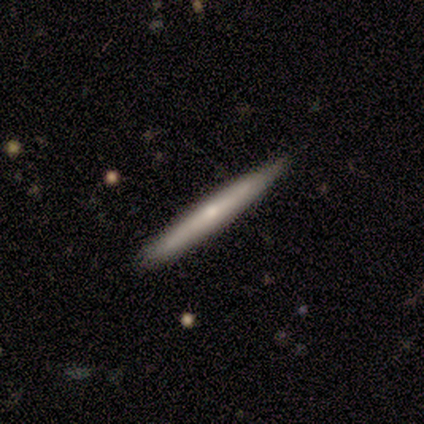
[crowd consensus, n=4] Overall: smooth (50%; featured or disk 25%). How rounded: cigar-shaped (100%). Merging: none (67%; minor disturbance 33%).